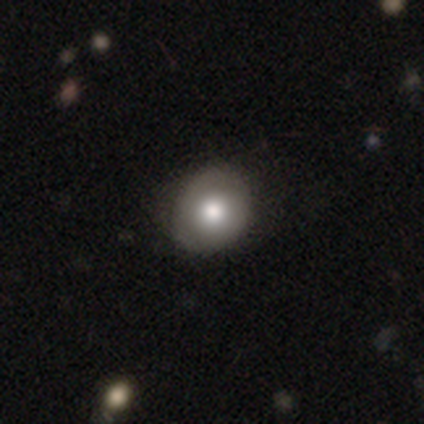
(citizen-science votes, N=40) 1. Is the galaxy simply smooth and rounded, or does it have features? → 78% smooth, 18% featured or disk, 5% star or artifact.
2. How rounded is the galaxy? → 84% round, 16% in between, 0% cigar-shaped.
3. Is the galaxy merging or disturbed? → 61% none, 13% minor disturbance, 0% major disturbance, 0% merger.